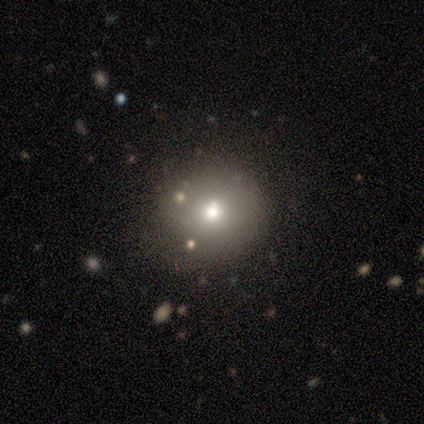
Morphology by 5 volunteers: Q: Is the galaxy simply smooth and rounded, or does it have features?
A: smooth — 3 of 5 (60%).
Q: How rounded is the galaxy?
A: round — 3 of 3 (100%).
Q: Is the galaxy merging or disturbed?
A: none — 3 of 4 (75%).